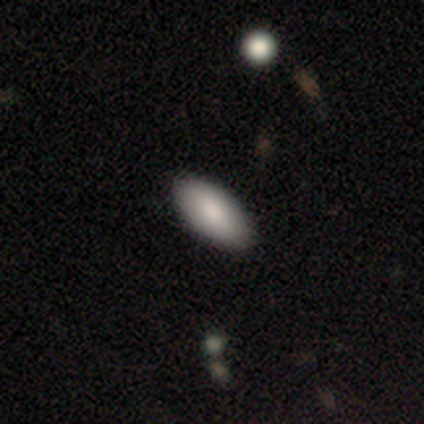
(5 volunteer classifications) smooth_or_featured: smooth (p=0.60) [alt: star or artifact p=0.40]
how_rounded: in between (p=1.00)
merging: none (p=1.00)